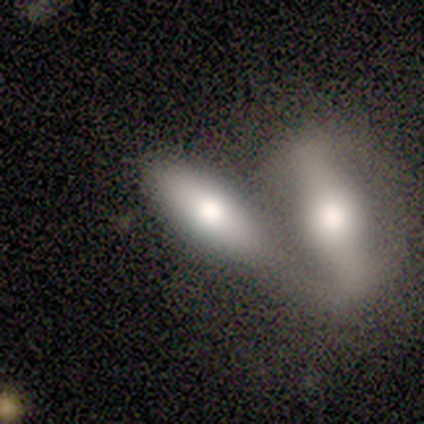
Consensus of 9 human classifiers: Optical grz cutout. It shows a featured or disk galaxy (56%) with no bar (60%), no spiral arms (60%) and a moderate central bulge (60%). Merging: merger (75%).